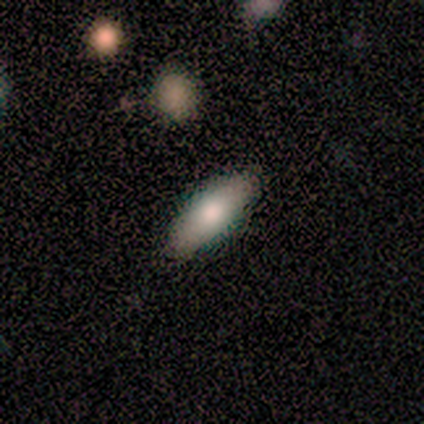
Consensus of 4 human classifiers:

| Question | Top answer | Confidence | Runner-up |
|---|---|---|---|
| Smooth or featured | smooth | 50% | tied: featured or disk (50%) |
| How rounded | in between | 50% | tied: cigar-shaped (50%) |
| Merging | none | 100% | — |